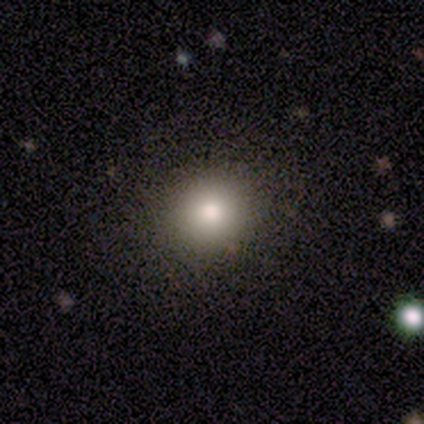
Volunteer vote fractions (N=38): smooth_or_featured: smooth (p=0.79) [alt: featured or disk p=0.11]
how_rounded: round (p=0.83) [alt: in between p=0.13]
merging: none (p=0.76) [alt: minor disturbance p=0.21]